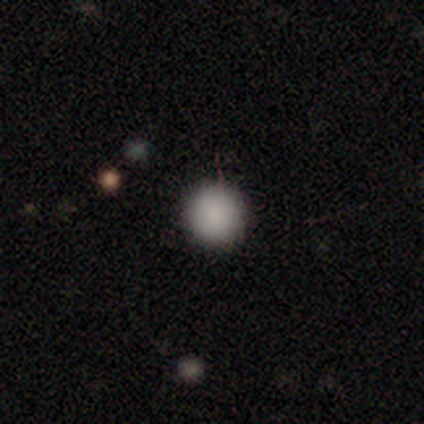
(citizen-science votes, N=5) A smooth galaxy with no disk features (80%) that is round (75%). Merging: none (75%).